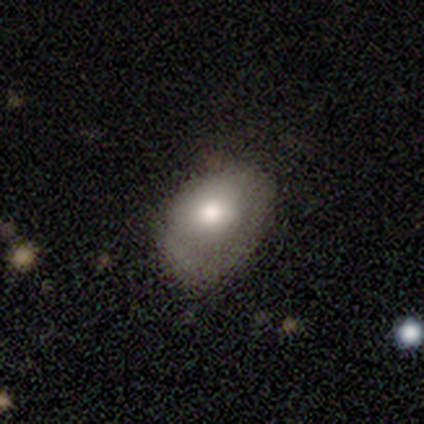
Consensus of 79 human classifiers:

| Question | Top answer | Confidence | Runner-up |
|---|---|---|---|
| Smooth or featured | smooth | 77% | featured or disk (16%) |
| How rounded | in between | 74% | round (25%) |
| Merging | none | 19% | minor disturbance (18%) |